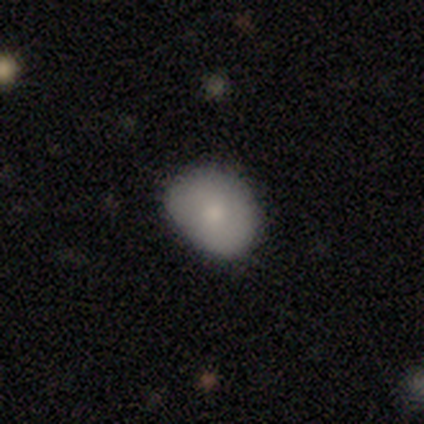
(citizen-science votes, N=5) Smooth or featured: smooth — 80% (star or artifact — 20%)
How rounded: round — 50% (tied with in between — 50%)
Merging: none — 100%